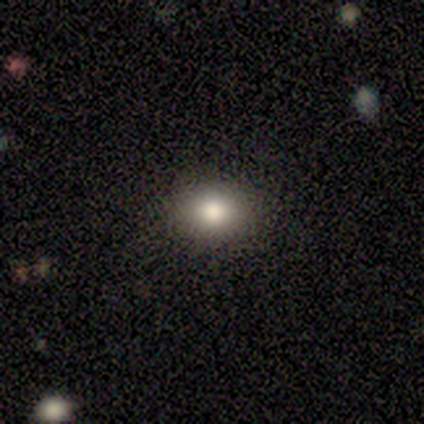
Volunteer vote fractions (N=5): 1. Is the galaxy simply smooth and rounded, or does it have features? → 80% smooth, 20% featured or disk, 0% star or artifact.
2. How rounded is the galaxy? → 75% in between, 25% round, 0% cigar-shaped.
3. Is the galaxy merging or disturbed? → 100% none, 0% minor disturbance, 0% major disturbance, 0% merger.